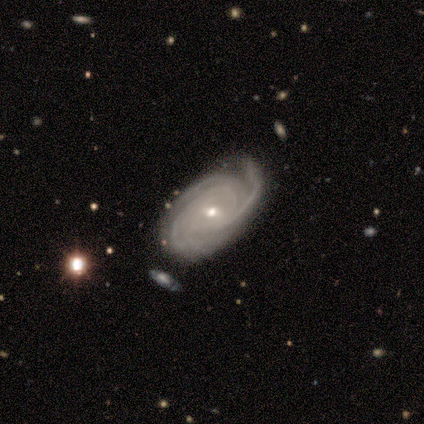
smooth-or-featured: featured or disk: 100% | smooth: 0% | star or artifact: 0%
  disk-edge-on: no: 100% | yes: 0%
    bar: weak: 60% | strong: 20% | no: 20%
    has-spiral-arms: yes: 100% | no: 0%
      spiral-winding: tight: 60% | medium: 20% | loose: 20%
      spiral-arm-count: 4: 60% | 2: 20% | can't tell: 20% | 1: 0% | 3: 0% | more than 4: 0%
    bulge-size: moderate: 60% | small: 40% | dominant: 0% | large: 0% | none: 0%
  merging: none: 60% | minor disturbance: 40% | major disturbance: 0% | merger: 0%